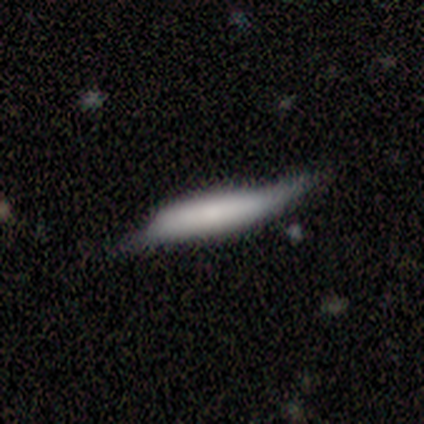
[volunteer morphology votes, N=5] Smooth or featured: smooth — 60% (featured or disk — 40%)
How rounded: cigar-shaped — 67% (in between — 33%)
Merging: none — 60% (minor disturbance — 20%)